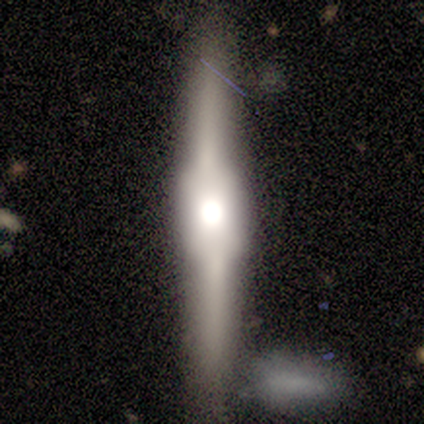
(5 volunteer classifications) Morphology: type=featured or disk (100%); edge-on=yes (100%); edge-on bulge=boxy (60%); merging=none (80%).